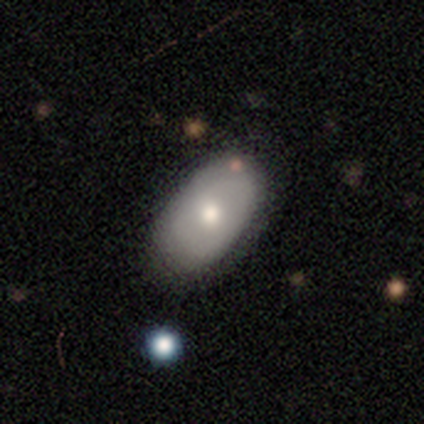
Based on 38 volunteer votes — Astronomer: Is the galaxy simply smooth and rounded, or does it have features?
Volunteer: smooth — 61% (runner-up: featured or disk, 37%).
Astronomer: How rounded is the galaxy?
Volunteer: in between — 91%.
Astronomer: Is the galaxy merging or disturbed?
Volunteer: none — 76%.